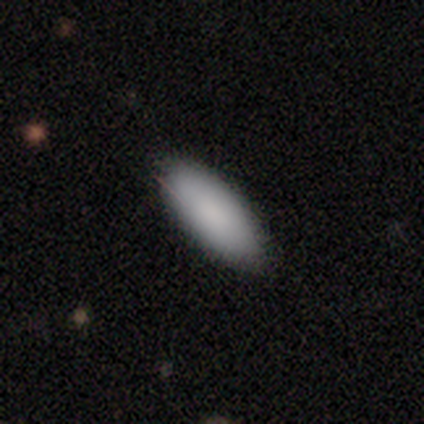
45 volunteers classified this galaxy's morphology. smooth 91%, featured or disk 4%, star or artifact 4%. Down the decision tree: how rounded — in between (78%); merging — none (81%).